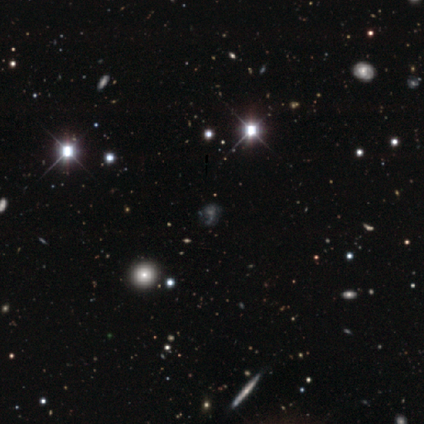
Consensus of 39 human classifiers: Smooth or featured: star or artifact — 54% (smooth — 26%)